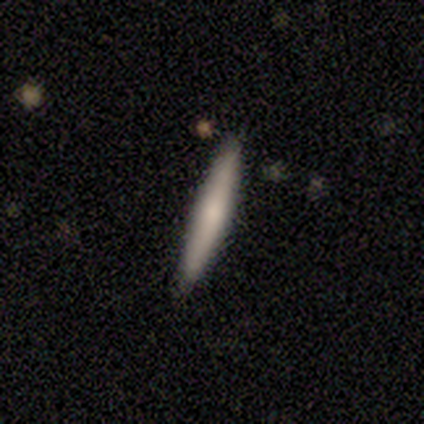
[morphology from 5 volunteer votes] Overall: smooth (80%). How rounded: cigar-shaped (100%). Merging: none (100%).